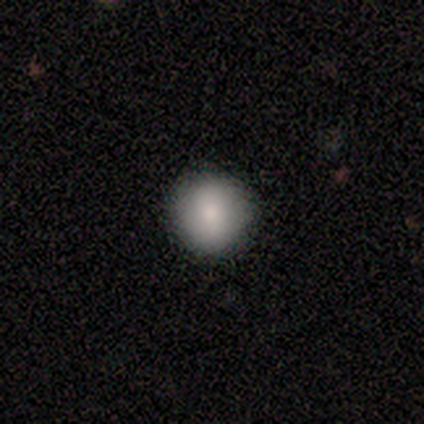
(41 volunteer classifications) Volunteers were most divided on "smooth or featured": smooth: 80%, featured or disk: 17%, star or artifact: 2%. More confident: how rounded — round (91%); merging — none (88%).